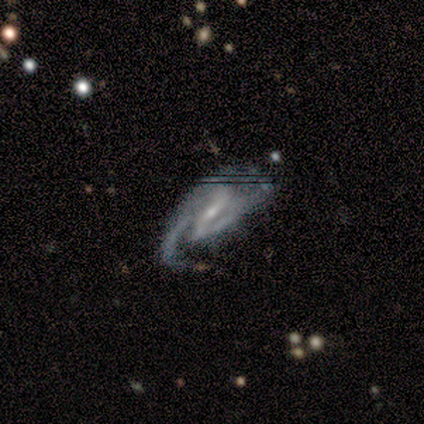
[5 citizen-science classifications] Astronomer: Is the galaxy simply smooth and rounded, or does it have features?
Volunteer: featured or disk — 100%.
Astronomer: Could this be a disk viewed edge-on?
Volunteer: no — 100%.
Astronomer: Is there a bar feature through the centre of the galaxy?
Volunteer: strong — 60% (runner-up: weak, 40%).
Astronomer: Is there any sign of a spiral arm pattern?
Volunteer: yes — 100%.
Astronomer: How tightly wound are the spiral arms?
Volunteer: medium — 60% (runner-up: loose, 40%).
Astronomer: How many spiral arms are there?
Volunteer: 2 — 100%.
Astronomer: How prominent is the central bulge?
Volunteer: small — 80%.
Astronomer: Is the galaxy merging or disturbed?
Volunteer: minor disturbance — 60% (runner-up: none, 40%).